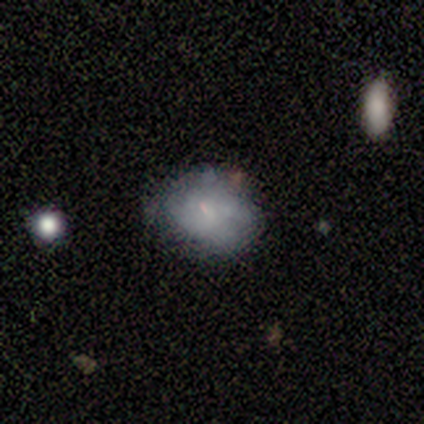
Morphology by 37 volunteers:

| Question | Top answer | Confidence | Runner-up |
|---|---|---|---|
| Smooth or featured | smooth | 68% | featured or disk (27%) |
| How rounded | round | 68% | in between (32%) |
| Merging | none | 71% | minor disturbance (20%) |